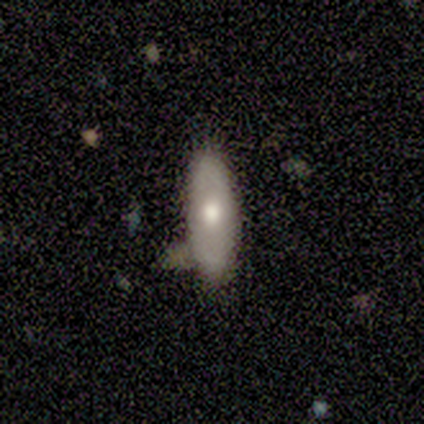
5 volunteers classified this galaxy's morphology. smooth 80%, star or artifact 20%, featured or disk 0%. Down the decision tree: how rounded — in between (75%); merging — none (75%).